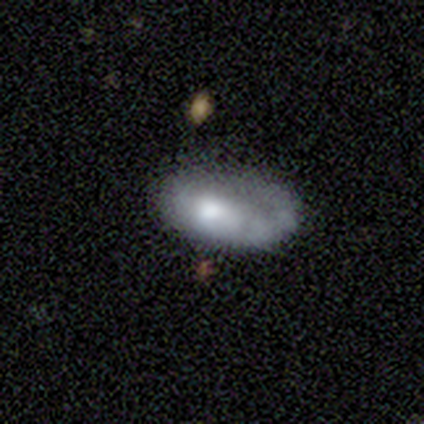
A smooth galaxy with no disk features (100%) that is in between round and cigar-shaped (100%). Merging: major disturbance (60%).